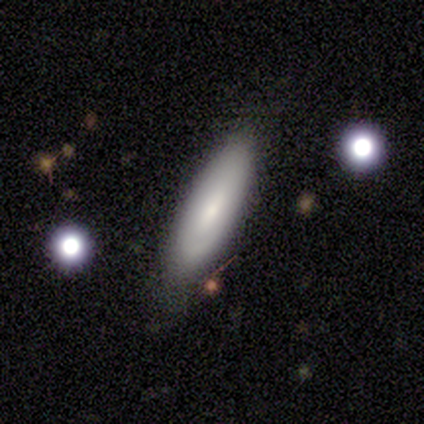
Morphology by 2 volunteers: Volunteers were most divided on "merging" (2-way tie): none: 50%, minor disturbance: 50%, major disturbance: 0%, merger: 0%. More confident: smooth or featured — smooth (100%); how rounded — cigar-shaped (100%).